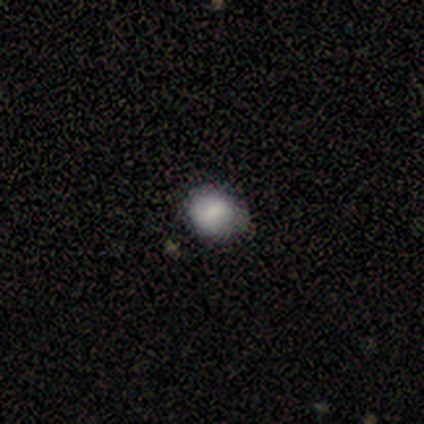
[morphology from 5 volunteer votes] Volunteers were most divided on "how rounded" (2-way tie): round: 50%, in between: 50%, cigar-shaped: 0%. More confident: smooth or featured — smooth (80%); merging — none (80%).